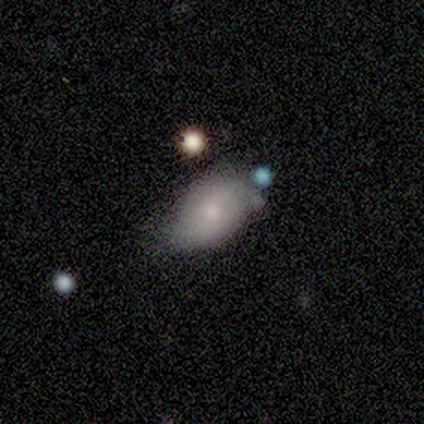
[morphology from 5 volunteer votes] This is clearly a smooth galaxy (100%). How rounded: clearly in between (80%). Merging: likely minor disturbance (60%).